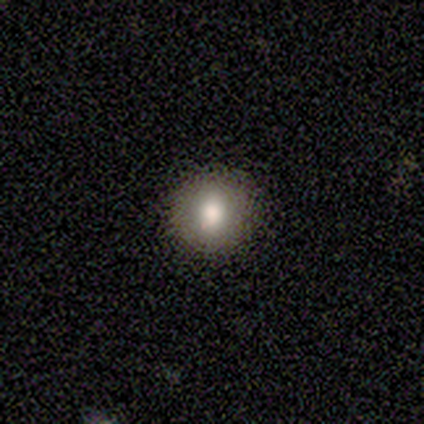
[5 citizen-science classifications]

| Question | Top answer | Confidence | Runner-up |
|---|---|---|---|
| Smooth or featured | featured or disk | 60% | smooth (40%) |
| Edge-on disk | no | 100% | — |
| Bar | no | 100% | — |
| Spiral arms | no | 100% | — |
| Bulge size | moderate | 67% | large (33%) |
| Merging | none | 100% | — |